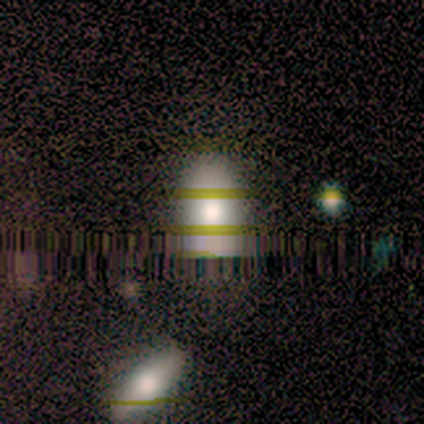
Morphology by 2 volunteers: smooth_or_featured: smooth (p=1.00)
how_rounded: in between (p=1.00)
merging: none (p=1.00)